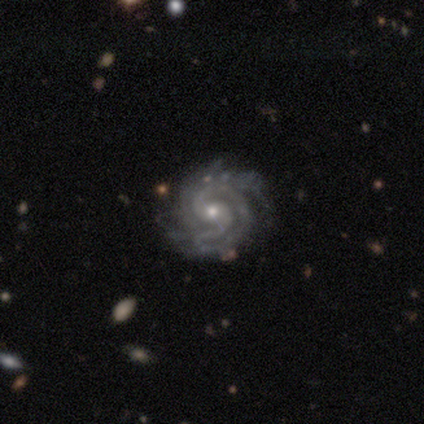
Smooth or featured? 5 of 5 (100%) said featured or disk. Edge-on disk? 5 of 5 (100%) said no. Bar? 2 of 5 (40%, tied with no) said weak. Spiral arms? 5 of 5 (100%) said yes. Spiral winding? 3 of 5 (60%) said tight. Spiral arm count? 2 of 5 (40%, tied with 3) said 2. Bulge size? 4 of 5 (80%) said small. Merging? 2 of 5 (40%, tied with major disturbance) said none.